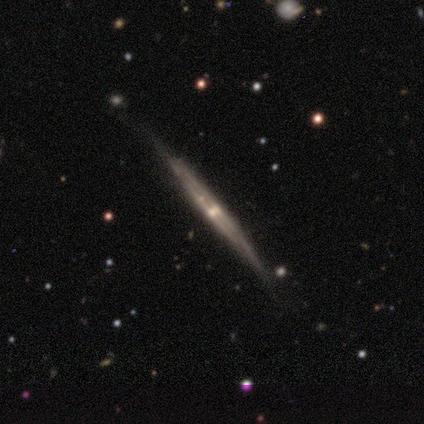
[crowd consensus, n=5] Smooth or featured? 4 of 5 (80%) said featured or disk. Edge-on disk? 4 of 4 (100%) said yes. Edge-on bulge? 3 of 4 (75%) said none. Merging? 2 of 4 (50%) said none.